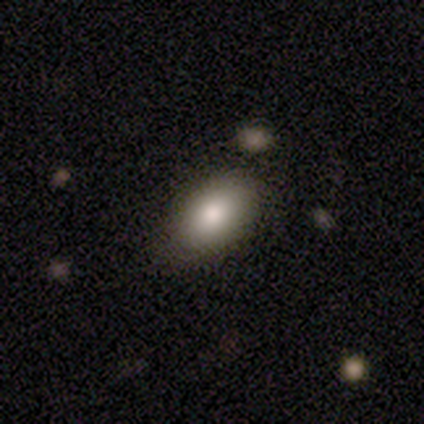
Overall: smooth (100%). How rounded: in between (100%). Merging: none (60%; minor disturbance 40%).